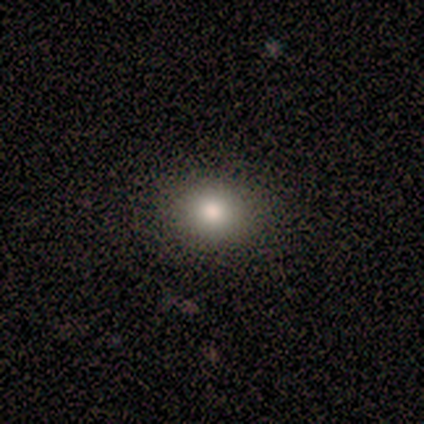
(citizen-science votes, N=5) This is likely a smooth galaxy (60%). How rounded: marginally round (33%, tied with in between and cigar-shaped). Merging: clearly none (100%).